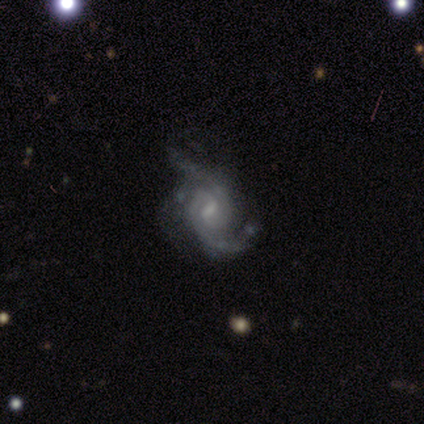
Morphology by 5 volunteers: Volunteers were most divided on "bulge size" (2-way tie): moderate: 50%, small: 50%, dominant: 0%, large: 0%, none: 0%. More confident: edge-on disk — no (100%); bar — weak (100%); spiral arm count — 2 (100%); smooth or featured — featured or disk (80%); spiral arms — yes (75%); spiral winding — tight (67%); merging — none (50%).